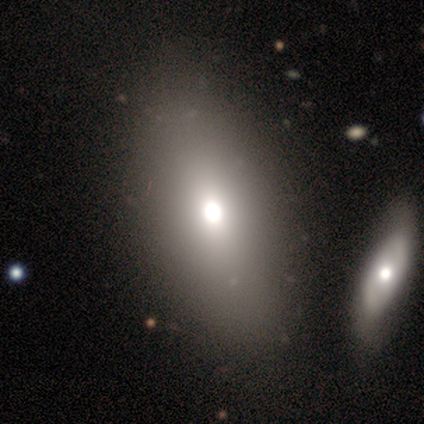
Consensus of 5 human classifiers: Smooth or featured?
  - smooth: 80% *
  - star or artifact: 20%
  - featured or disk: 0%
How rounded?
  - in between: 100% *
  - round: 0%
  - cigar-shaped: 0%
Merging?
  - none: 50% * (tied)
  - merger: 50% * (tied)
  - minor disturbance: 0%
  - major disturbance: 0%